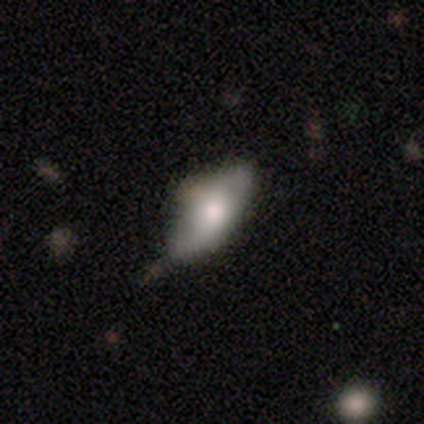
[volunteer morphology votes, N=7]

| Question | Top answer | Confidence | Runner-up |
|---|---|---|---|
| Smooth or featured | smooth | 71% | featured or disk (29%) |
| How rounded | in between | 100% | — |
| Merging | minor disturbance | 57% | none (29%) |